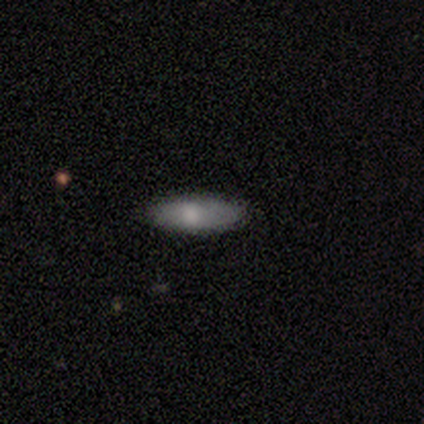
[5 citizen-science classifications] Smooth or featured: smooth — 60% (featured or disk — 20%)
How rounded: in between — 100%
Merging: none — 100%